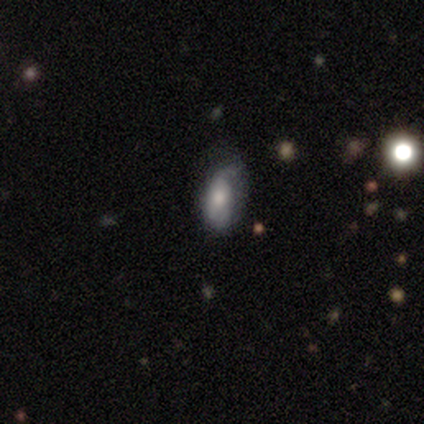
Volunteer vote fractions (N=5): featured or disk 80%, smooth 20%, star or artifact 0%. Down the decision tree: edge-on disk — no (100%); bar — no (75%); spiral arms — yes (100%); spiral arm count — can't tell (75%); spiral winding — tight (75%); bulge size — moderate (75%); merging — minor disturbance (60%).